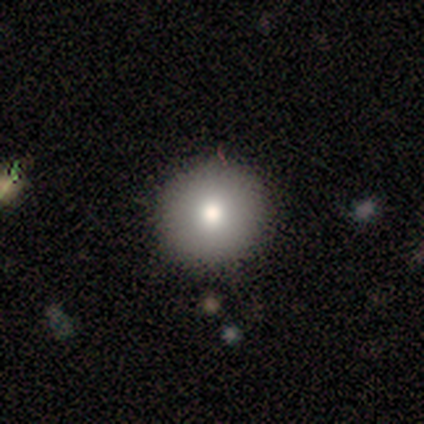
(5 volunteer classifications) smooth_or_featured: featured or disk (p=0.60) [alt: smooth p=0.40]
disk_edge_on: no (p=1.00)
bar: no (p=1.00)
has_spiral_arms: no (p=1.00)
bulge_size: moderate (p=1.00)
merging: none (p=1.00)